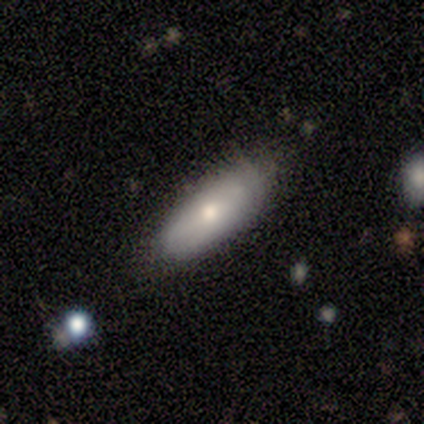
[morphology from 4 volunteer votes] A smooth galaxy with no disk features (75%) that is in between round and cigar-shaped (67%). Merging: none (100%).